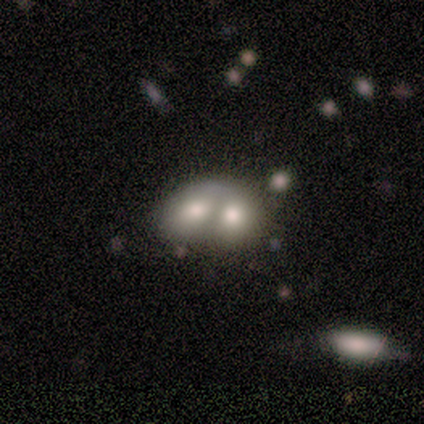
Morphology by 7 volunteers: type=smooth (43%, tied with featured or disk); roundness=in between (67%); merging=merger (67%).